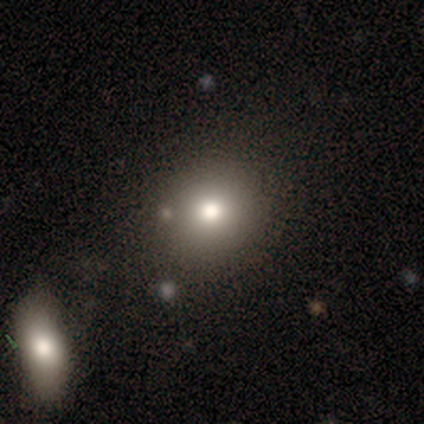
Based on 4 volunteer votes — smooth_or_featured: smooth (p=0.75) [alt: star or artifact p=0.25]
how_rounded: round (p=1.00)
merging: none (p=1.00)